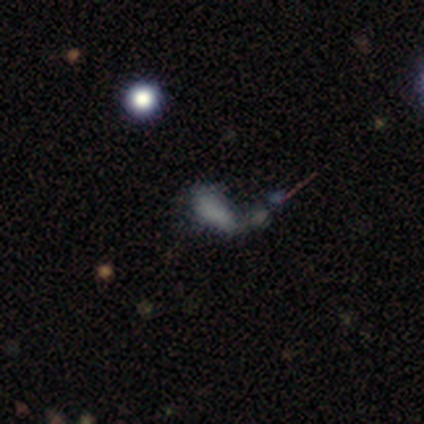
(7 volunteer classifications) smooth_or_featured: smooth (p=0.43) [alt: featured or disk p=0.29]
how_rounded: in between (p=1.00)
merging: none (p=0.40) [alt: minor disturbance p=0.20]